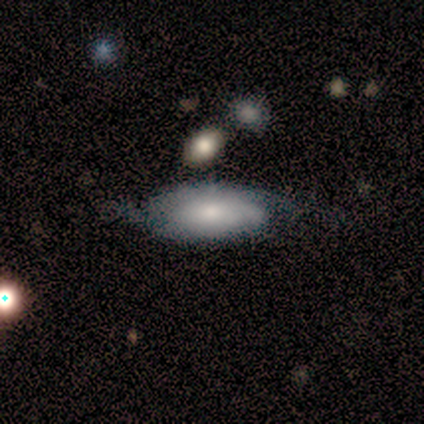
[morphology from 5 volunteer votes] Smooth or featured?
  - featured or disk: 60% *
  - smooth: 40%
  - star or artifact: 0%
Edge-on disk?
  - no: 67% *
  - yes: 33%
Bar?
  - no: 100% *
  - strong: 0%
  - weak: 0%
Spiral arms?
  - yes: 100% *
  - no: 0%
Spiral winding?
  - tight: 50% * (tied)
  - medium: 50% * (tied)
  - loose: 0%
Spiral arm count?
  - 3: 50% * (tied)
  - can't tell: 50% * (tied)
  - 1: 0%
  - 2: 0%
  - 4: 0%
  - more than 4: 0%
Bulge size?
  - moderate: 100% *
  - dominant: 0%
  - large: 0%
  - small: 0%
  - none: 0%
Merging?
  - none: 80% *
  - major disturbance: 20%
  - minor disturbance: 0%
  - merger: 0%